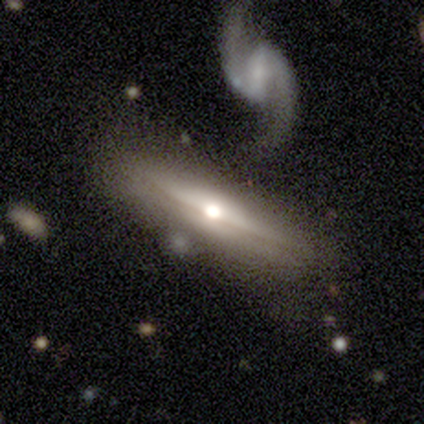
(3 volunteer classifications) smooth_or_featured: featured or disk (p=0.67) [alt: star or artifact p=0.33]
disk_edge_on: yes (p=0.50) [tied with: no p=0.50]
edge_on_bulge: rounded (p=1.00)
merging: major disturbance (p=0.50) [tied with: merger p=0.50]